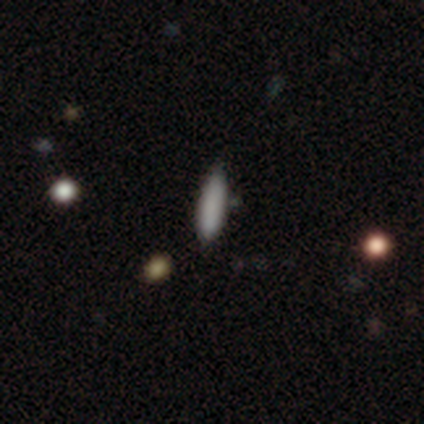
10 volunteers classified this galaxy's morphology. Smooth or featured: smooth — 80% (featured or disk — 20%)
How rounded: cigar-shaped — 88% (in between — 12%)
Merging: none — 80% (minor disturbance — 10%)